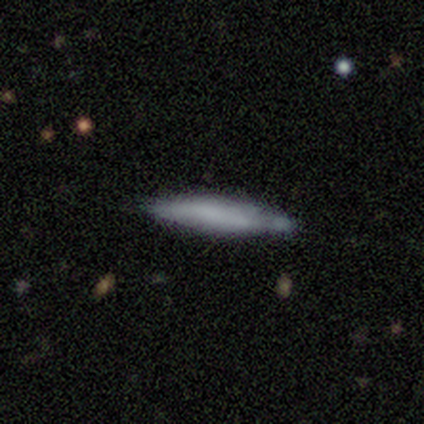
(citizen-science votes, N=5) A smooth galaxy with no disk features (80%) that is cigar-shaped (100%).

Vote fractions:
- Smooth or featured? smooth: 80% / star or artifact: 20% / featured or disk: 0%
- How rounded? cigar-shaped: 100% / round: 0% / in between: 0%
- Merging? none: 75% / minor disturbance: 25% / major disturbance: 0% / merger: 0%